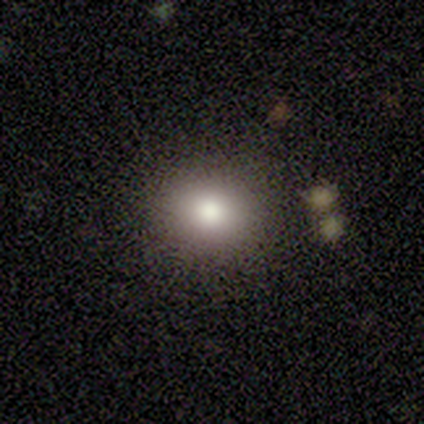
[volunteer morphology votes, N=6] smooth-or-featured: smooth: 100% | featured or disk: 0% | star or artifact: 0%
  how-rounded: round: 50% (tied) | in between: 50% (tied) | cigar-shaped: 0%
  merging: none: 83% | minor disturbance: 17% | major disturbance: 0% | merger: 0%